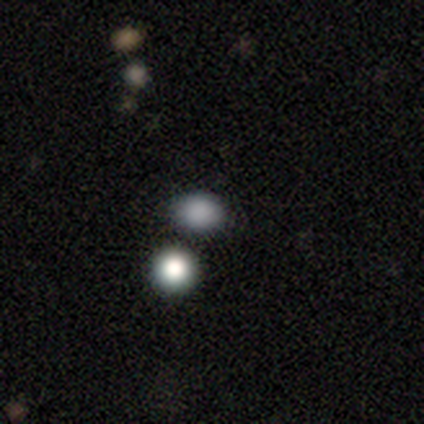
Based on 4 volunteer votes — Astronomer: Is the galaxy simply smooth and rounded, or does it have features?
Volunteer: smooth — 100%.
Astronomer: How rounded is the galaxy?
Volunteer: in between — 75%.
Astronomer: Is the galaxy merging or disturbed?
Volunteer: none — 100%.